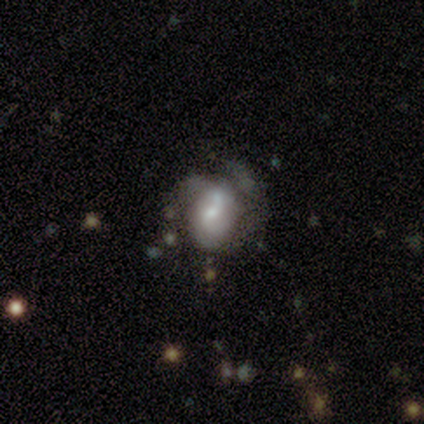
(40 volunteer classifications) A featured or disk galaxy (68%) with no bar (52%), 2 (44%, tied with can't tell) medium (44%) spiral arms (67%) and a small central bulge (52%). Merging: major disturbance (40%).